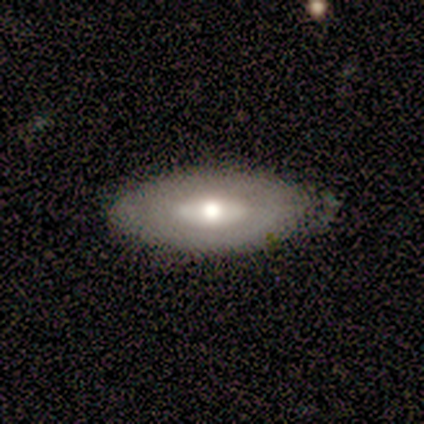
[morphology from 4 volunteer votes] A featured or disk galaxy (75%) with no bar (100%), no spiral arms (100%) and a moderate central bulge (67%).

Vote fractions:
- Smooth or featured? featured or disk: 75% / smooth: 25% / star or artifact: 0%
- Edge-on disk? no: 100% / yes: 0%
- Bar? no: 100% / strong: 0% / weak: 0%
- Spiral arms? no: 100% / yes: 0%
- Bulge size? moderate: 67% / large: 33% / dominant: 0% / small: 0% / none: 0%
- Merging? none: 75% / minor disturbance: 25% / major disturbance: 0% / merger: 0%